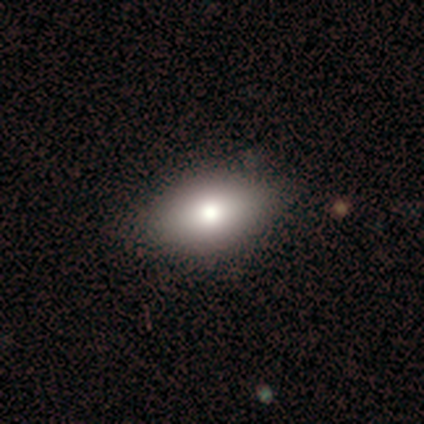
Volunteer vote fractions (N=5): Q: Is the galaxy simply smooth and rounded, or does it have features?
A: smooth — 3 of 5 (60%).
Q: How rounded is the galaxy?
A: in between — 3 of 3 (100%).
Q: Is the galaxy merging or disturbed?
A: none — 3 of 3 (100%).